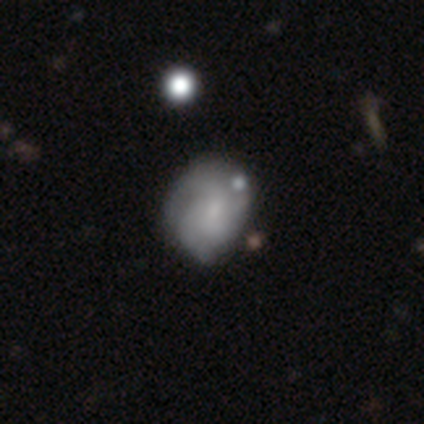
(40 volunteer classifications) smooth_or_featured: featured or disk (p=0.60) [alt: smooth p=0.38]
disk_edge_on: no (p=1.00)
bar: no (p=0.88) [alt: weak p=0.12]
has_spiral_arms: yes (p=0.79) [alt: no p=0.21]
spiral_winding: tight (p=0.53) [alt: medium p=0.32]
spiral_arm_count: can't tell (p=0.68) [alt: 2 p=0.16]
bulge_size: small (p=0.58) [alt: none p=0.25]
merging: none (p=0.23) [tied with: minor disturbance p=0.23]